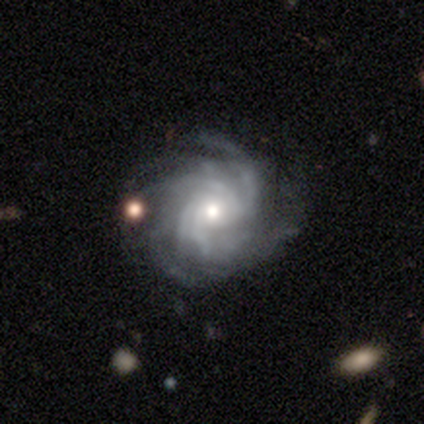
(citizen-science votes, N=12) Smooth or featured? 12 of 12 (100%) said featured or disk. Edge-on disk? 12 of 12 (100%) said no. Bar? 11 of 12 (92%) said no. Spiral arms? 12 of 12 (100%) said yes. Spiral winding? 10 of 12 (83%) said tight. Spiral arm count? 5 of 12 (42%) said more than 4. Bulge size? 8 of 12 (67%) said moderate. Merging? 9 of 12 (75%) said none.